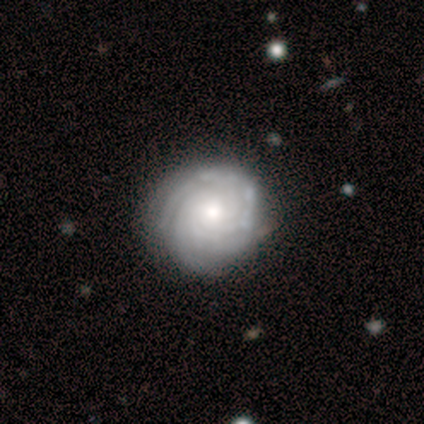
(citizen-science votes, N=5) This appears to be a featured or disk galaxy (100%) with no bar (100%), 3 (50%) tight (100%) spiral arms (80%) and a moderate central bulge (60%). Merging: none (60%).